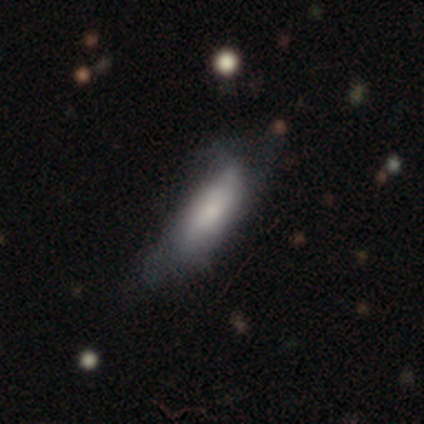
smooth-or-featured: smooth: 67% | featured or disk: 33% | star or artifact: 0%
  how-rounded: in between: 50% (tied) | cigar-shaped: 50% (tied) | round: 0%
  merging: minor disturbance: 67% | none: 33% | major disturbance: 0% | merger: 0%